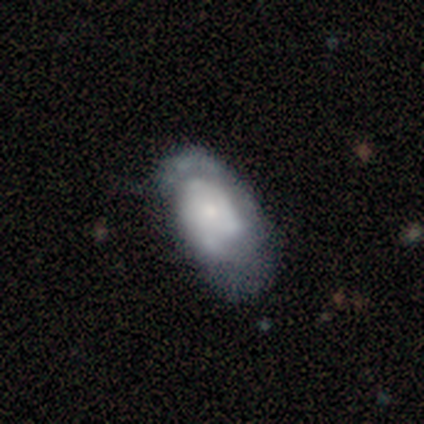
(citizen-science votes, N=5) This is likely a smooth galaxy (60%). How rounded: clearly in between (100%). Merging: clearly minor disturbance (80%).